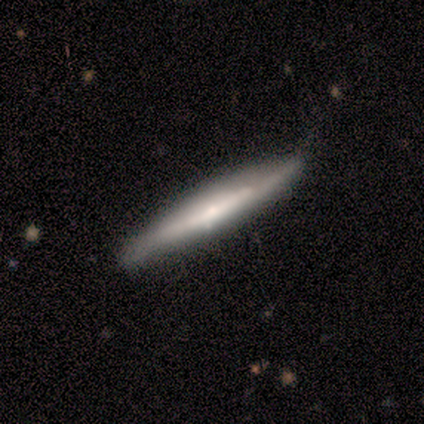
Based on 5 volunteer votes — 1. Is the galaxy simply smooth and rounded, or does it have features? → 60% featured or disk, 40% smooth, 0% star or artifact.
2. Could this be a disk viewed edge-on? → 100% yes, 0% no.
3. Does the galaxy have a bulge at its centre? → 33% boxy (tied), 33% none (tied), 33% rounded (tied).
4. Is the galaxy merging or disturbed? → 80% none, 20% minor disturbance, 0% major disturbance, 0% merger.